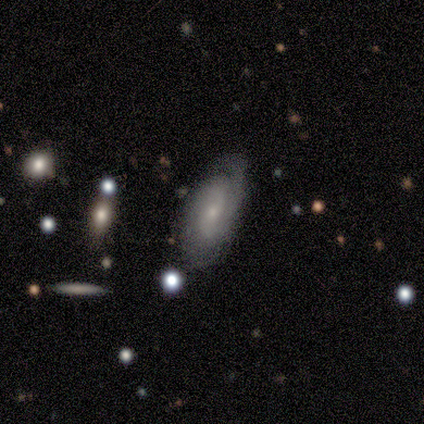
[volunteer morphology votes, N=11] featured or disk 73%, star or artifact 18%, smooth 9%. Down the decision tree: edge-on disk — no (100%); bar — weak (50%, tied with no); spiral arms — yes (100%); spiral arm count — 2 (62%); spiral winding — tight (62%); bulge size — small (100%); merging — none (56%).